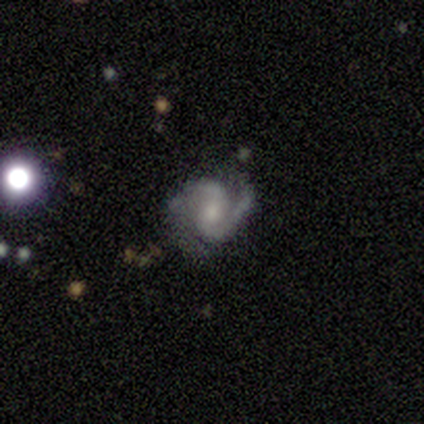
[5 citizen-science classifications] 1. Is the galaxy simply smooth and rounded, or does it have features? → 100% featured or disk, 0% smooth, 0% star or artifact.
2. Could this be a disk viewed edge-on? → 100% no, 0% yes.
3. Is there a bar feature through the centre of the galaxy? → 80% no, 20% weak, 0% strong.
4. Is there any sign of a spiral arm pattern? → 100% yes, 0% no.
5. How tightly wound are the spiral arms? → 40% medium (tied), 40% loose (tied), 20% tight.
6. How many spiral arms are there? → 100% 2, 0% 1, 0% 3, 0% 4, 0% more than 4, 0% can't tell.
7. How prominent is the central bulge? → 80% small, 20% moderate, 0% dominant, 0% large, 0% none.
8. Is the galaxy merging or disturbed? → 100% none, 0% minor disturbance, 0% major disturbance, 0% merger.